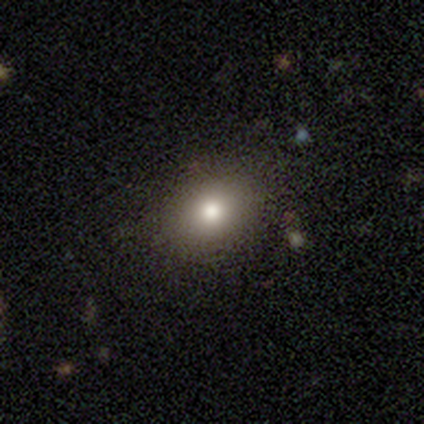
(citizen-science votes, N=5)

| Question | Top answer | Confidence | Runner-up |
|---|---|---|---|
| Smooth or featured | smooth | 100% | — |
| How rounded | round | 80% | in between (20%) |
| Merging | none | 80% | minor disturbance (20%) |